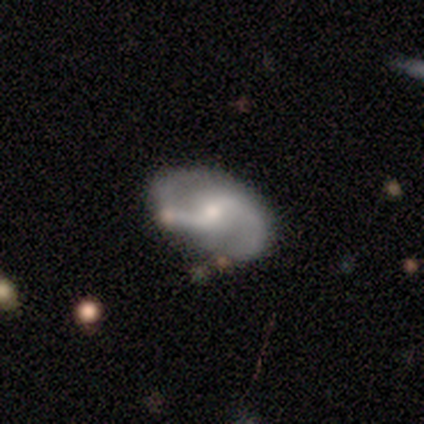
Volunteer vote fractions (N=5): Smooth or featured? featured or disk (100%)
Edge-on disk? no (100%)
Bar? no (80%)
Spiral arms? yes (100%)
Spiral winding? medium (40%, tied with loose)
Spiral arm count? 2 (100%)
Bulge size? small (80%)
Merging? none (60%)